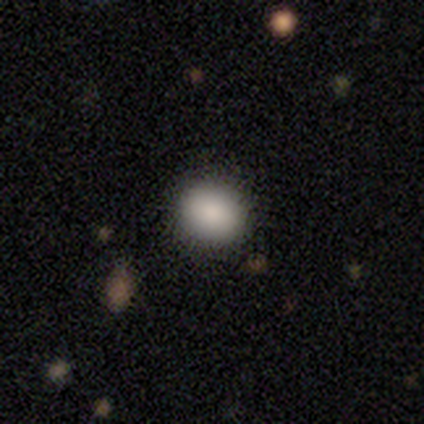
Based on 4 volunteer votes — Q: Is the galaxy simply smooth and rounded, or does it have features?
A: smooth — 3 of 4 (75%).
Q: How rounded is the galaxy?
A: round — 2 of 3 (67%).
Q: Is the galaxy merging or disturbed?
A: none — 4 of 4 (100%).